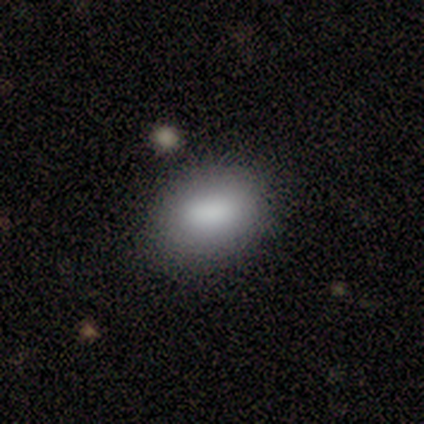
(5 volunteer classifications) smooth-or-featured: smooth: 100% | featured or disk: 0% | star or artifact: 0%
  how-rounded: in between: 80% | round: 20% | cigar-shaped: 0%
  merging: none: 100% | minor disturbance: 0% | major disturbance: 0% | merger: 0%